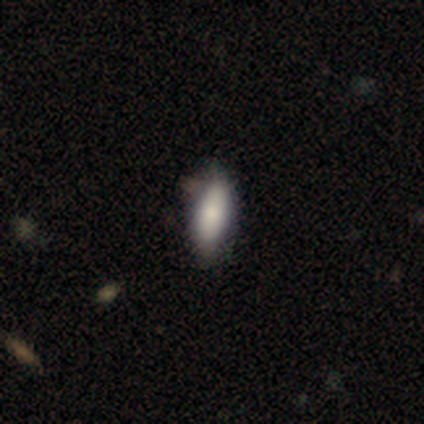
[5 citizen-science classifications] Smooth or featured? 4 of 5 (80%) said smooth. How rounded? 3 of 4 (75%) said in between. Merging? 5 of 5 (100%) said none.